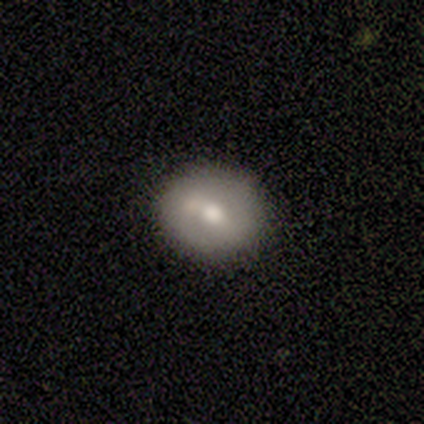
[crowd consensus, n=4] Overall: featured or disk (50%; smooth 25%). Edge-on disk: no (100%). Bar: weak (50%, tied with no). Spiral arms: no (100%). Bulge size: moderate (50%, tied with small). Merging: none (67%; merger 33%).